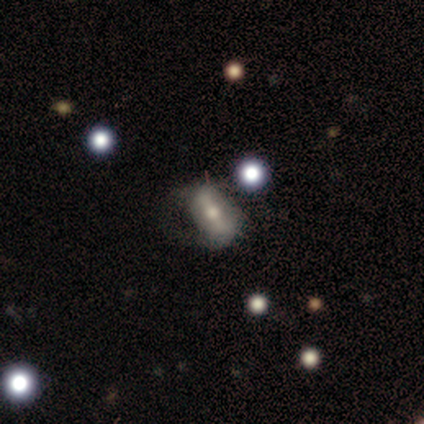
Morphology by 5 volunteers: Overall: featured or disk (60%; smooth 20%). Edge-on disk: no (67%; yes 33%). Bar: weak (100%). Spiral arms: yes (50%, tied with no). Spiral arm count: can't tell (100%). Spiral winding: loose (100%). Bulge size: moderate (50%, tied with small). Merging: minor disturbance (50%, tied with major disturbance).